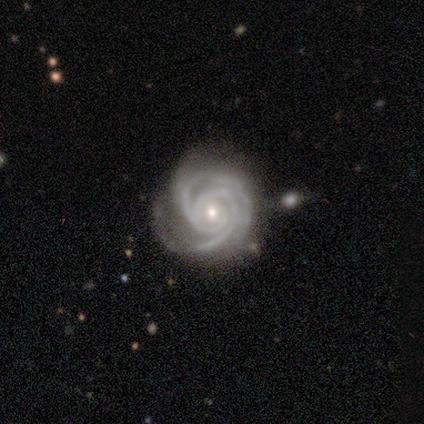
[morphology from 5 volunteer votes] This appears to be a featured or disk galaxy (100%) with no bar (60%), 2 (40%, tied with 3) tight (100%) spiral arms (100%) and a small central bulge (80%). Merging: none (40%, tied with minor disturbance).